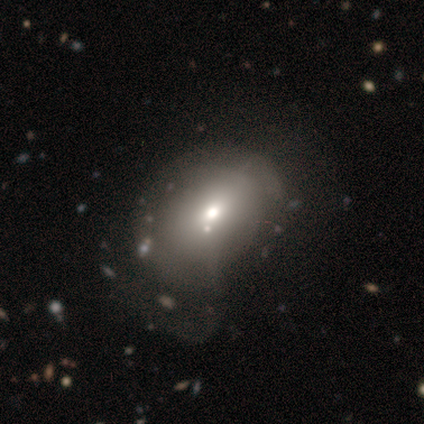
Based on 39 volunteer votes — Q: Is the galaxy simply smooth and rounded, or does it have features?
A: smooth — 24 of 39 (62%).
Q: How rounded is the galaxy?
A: in between — 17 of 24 (71%).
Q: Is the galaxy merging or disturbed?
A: none — 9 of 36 (25%).